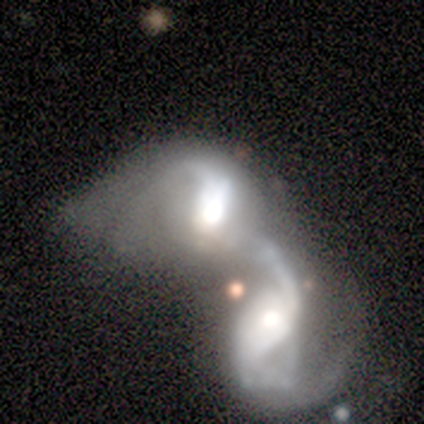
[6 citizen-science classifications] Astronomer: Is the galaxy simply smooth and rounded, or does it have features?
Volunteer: featured or disk — 100%.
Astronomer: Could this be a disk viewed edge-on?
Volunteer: no — 83%.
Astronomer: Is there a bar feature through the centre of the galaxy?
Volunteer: no — 60% (runner-up: strong, 40%).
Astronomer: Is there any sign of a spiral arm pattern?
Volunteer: yes — 60% (runner-up: no, 40%).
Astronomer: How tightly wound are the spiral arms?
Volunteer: loose — 100%.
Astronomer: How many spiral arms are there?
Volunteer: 1 — 67%.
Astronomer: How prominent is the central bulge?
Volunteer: moderate — 40% (runner-up: dominant, 20%).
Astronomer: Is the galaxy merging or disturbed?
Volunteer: merger — 100%.